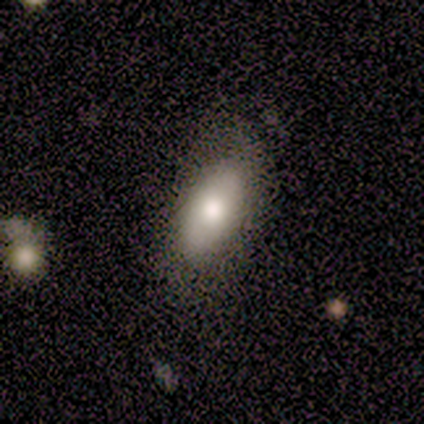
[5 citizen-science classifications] Smooth or featured? 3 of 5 (60%) said featured or disk. Edge-on disk? 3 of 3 (100%) said no. Bar? 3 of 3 (100%) said no. Spiral arms? 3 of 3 (100%) said no. Bulge size? 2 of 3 (67%) said large. Merging? 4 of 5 (80%) said none.